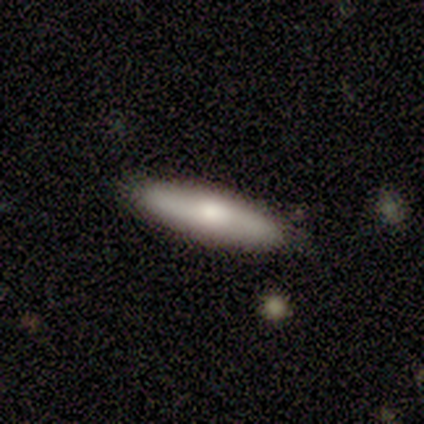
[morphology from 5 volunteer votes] Overall: smooth (80%). How rounded: cigar-shaped (75%). Merging: none (100%).